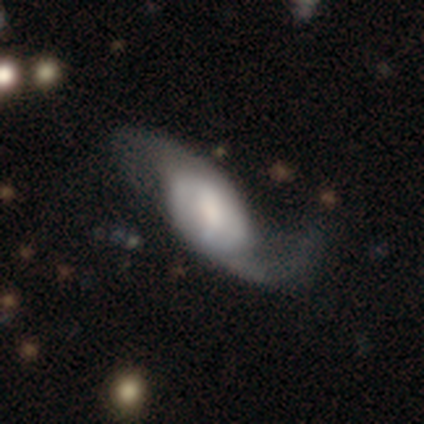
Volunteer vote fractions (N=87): Smooth or featured? featured or disk (71%)
Edge-on disk? no (94%)
Bar? weak (45%)
Spiral arms? yes (95%)
Spiral winding? loose (76%)
Spiral arm count? 2 (89%)
Bulge size? moderate (34%)
Merging? none (41%)